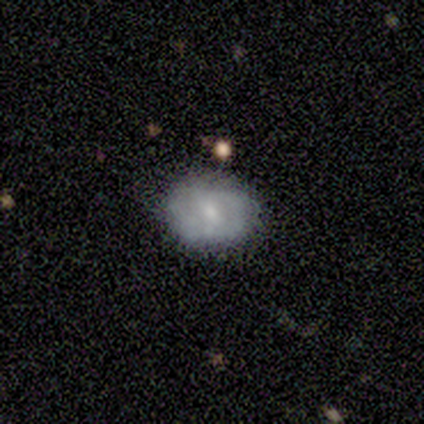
This is likely a smooth galaxy (60%). How rounded: likely in between (67%). Merging: clearly none (80%).